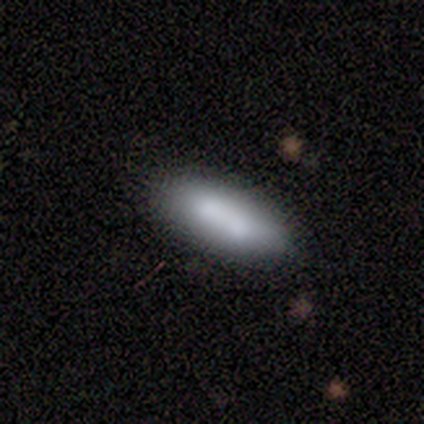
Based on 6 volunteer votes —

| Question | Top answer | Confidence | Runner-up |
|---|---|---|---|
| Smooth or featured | smooth | 67% | featured or disk (33%) |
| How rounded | in between | 100% | — |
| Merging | none | 50% | tied: merger (50%) |